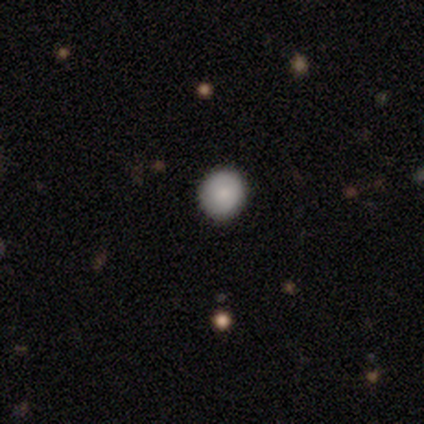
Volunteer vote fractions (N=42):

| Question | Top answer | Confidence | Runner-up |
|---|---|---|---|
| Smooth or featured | smooth | 71% | star or artifact (19%) |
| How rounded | round | 87% | in between (13%) |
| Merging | none | 85% | minor disturbance (15%) |